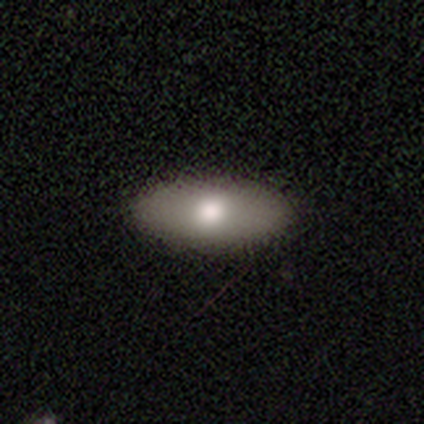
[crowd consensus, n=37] Smooth or featured?
  - smooth: 65% *
  - featured or disk: 27%
  - star or artifact: 8%
How rounded?
  - in between: 83% *
  - round: 12%
  - cigar-shaped: 4%
Merging?
  - none: 50% *
  - major disturbance: 3%
  - merger: 3%
  - minor disturbance: 0%